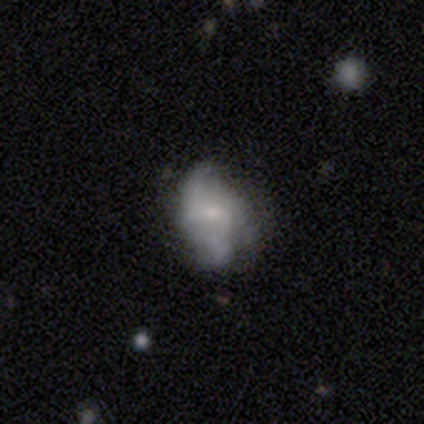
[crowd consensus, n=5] Morphology: type=smooth (60%); roundness=in between (67%); merging=none (75%).